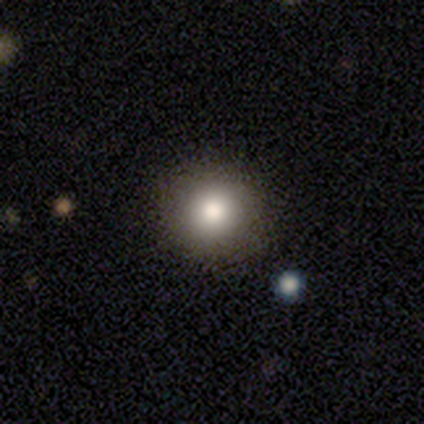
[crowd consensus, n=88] Overall: smooth (80%). How rounded: round (99%). Merging: none (86%).